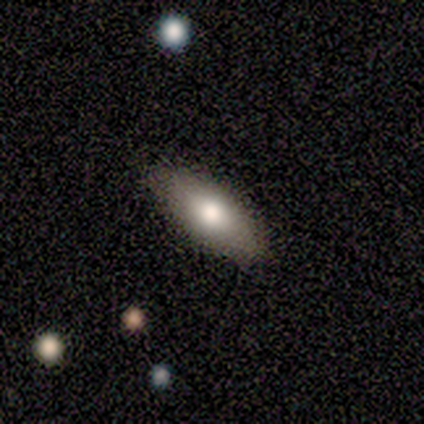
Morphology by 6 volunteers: smooth 67%, featured or disk 17%, star or artifact 17%. Down the decision tree: how rounded — in between (75%); merging — none (100%).